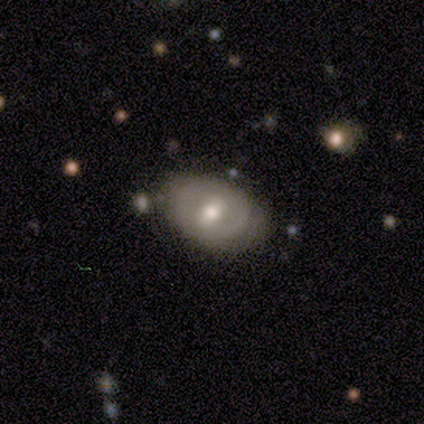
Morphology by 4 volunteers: smooth 75%, featured or disk 25%, star or artifact 0%. Down the decision tree: how rounded — in between (100%); merging — none (75%).